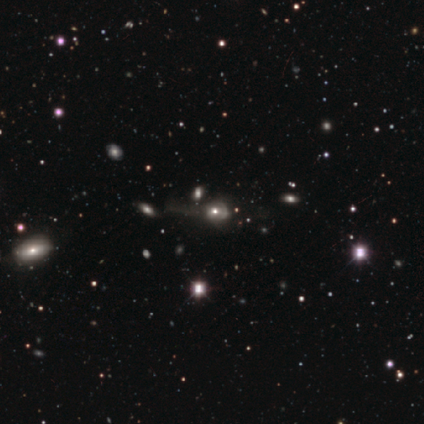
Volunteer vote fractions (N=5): featured or disk 60%, smooth 40%, star or artifact 0%. Down the decision tree: edge-on disk — no (100%); bar — no (100%); spiral arms — no (100%); bulge size — moderate (67%); merging — major disturbance (60%).